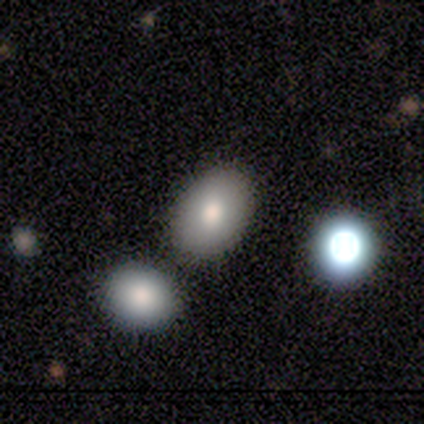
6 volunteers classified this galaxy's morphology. This appears to be a smooth galaxy with no disk features (83%) that is in between round and cigar-shaped (100%). Merging: none (67%).